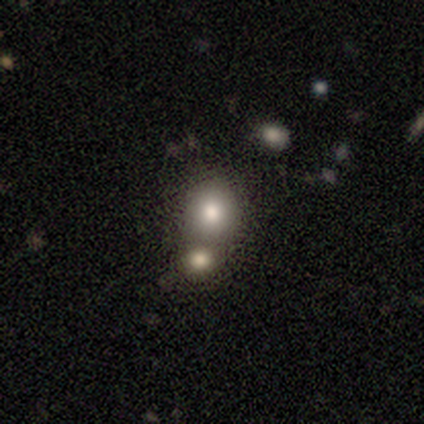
Smooth or featured?
  - smooth: 81% *
  - star or artifact: 10%
  - featured or disk: 9%
How rounded?
  - round: 77% *
  - in between: 23%
  - cigar-shaped: 0%
Merging?
  - merger: 46% *
  - none: 26%
  - minor disturbance: 3%
  - major disturbance: 0%